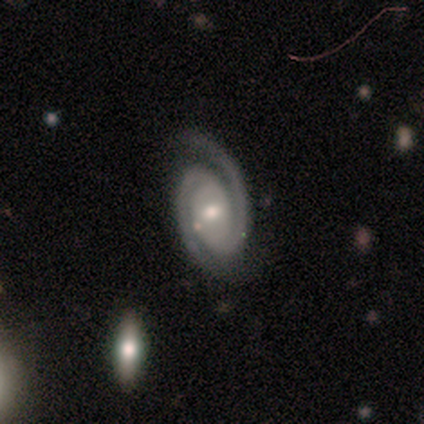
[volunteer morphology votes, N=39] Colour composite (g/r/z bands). It shows a featured or disk galaxy (90%) with no bar (54%), 2 (91%) tight (51%) spiral arms (100%) and a moderate central bulge (51%). Merging: none (78%).